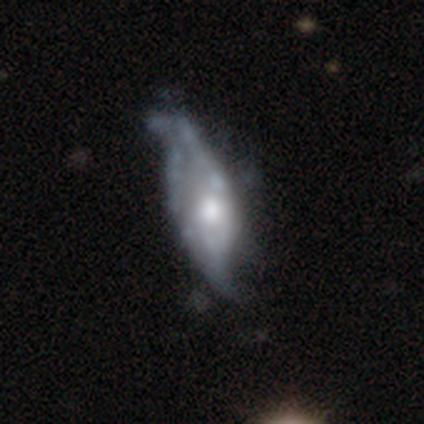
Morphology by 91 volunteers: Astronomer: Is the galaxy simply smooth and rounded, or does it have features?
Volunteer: featured or disk — 70%.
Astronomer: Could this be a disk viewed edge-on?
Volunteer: no — 88%.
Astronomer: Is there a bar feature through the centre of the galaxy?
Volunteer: no — 73%.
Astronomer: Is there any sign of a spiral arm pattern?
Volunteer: yes — 50%, tied with no at 50%.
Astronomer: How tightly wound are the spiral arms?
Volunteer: loose — 89%.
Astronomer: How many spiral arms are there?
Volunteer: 2 — 71%.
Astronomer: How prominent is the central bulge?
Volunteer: moderate — 73%.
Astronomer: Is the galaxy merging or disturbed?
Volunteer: minor disturbance — 39% (runner-up: major disturbance, 30%).